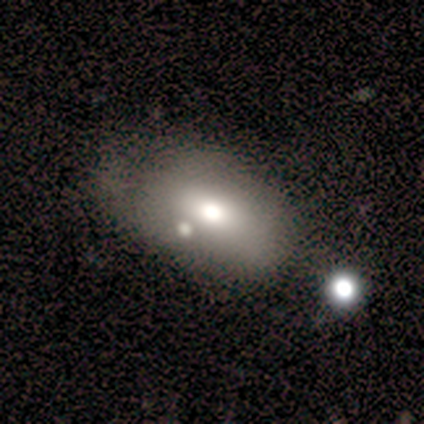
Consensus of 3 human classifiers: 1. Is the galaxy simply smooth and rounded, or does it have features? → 100% smooth, 0% featured or disk, 0% star or artifact.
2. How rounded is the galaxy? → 100% in between, 0% round, 0% cigar-shaped.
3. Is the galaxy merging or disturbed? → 67% none, 33% merger, 0% minor disturbance, 0% major disturbance.